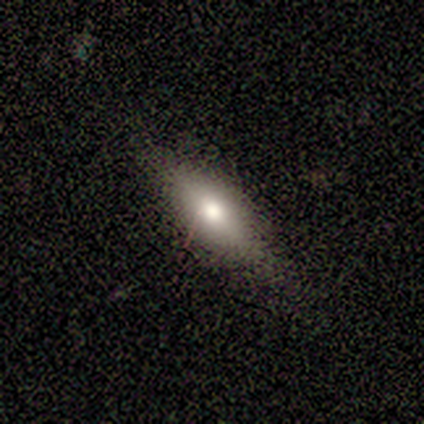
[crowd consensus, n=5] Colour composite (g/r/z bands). It shows a smooth galaxy with no disk features (100%) that is in between round and cigar-shaped (80%). Merging: none (100%).